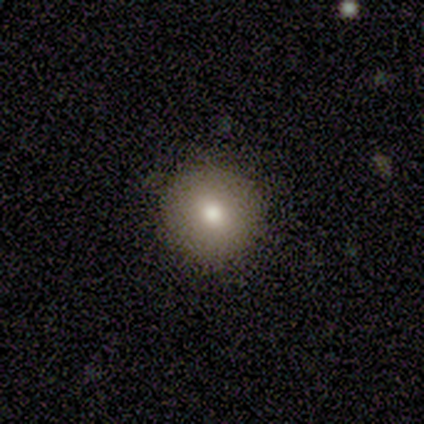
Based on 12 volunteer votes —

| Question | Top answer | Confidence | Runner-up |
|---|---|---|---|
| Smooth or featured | smooth | 83% | featured or disk (8%) |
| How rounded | round | 100% | — |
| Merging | none | 91% | minor disturbance (9%) |